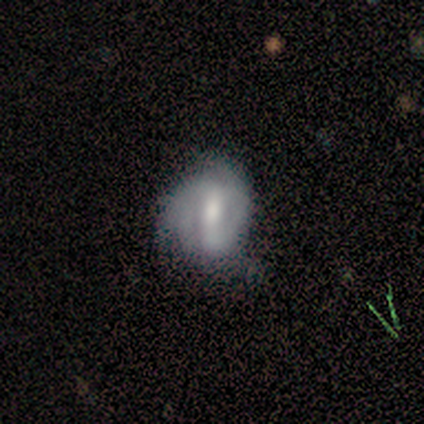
This is clearly a featured or disk galaxy (83%). It is clearly not viewed edge-on (100%). Bar: likely weak (60%). Spiral arm pattern: likely yes (60%). Spiral arm count: likely 2 (67%). Spiral winding: marginally tight (33%, tied with medium and loose). Central bulge: clearly moderate (100%). Merging: likely none (67%).